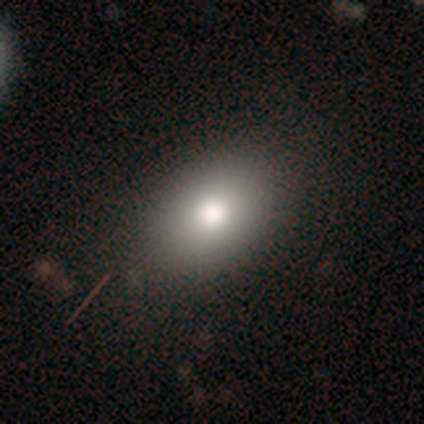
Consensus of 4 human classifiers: Volunteers were most divided on "smooth or featured": smooth: 75%, featured or disk: 25%, star or artifact: 0%. More confident: how rounded — in between (100%); merging — none (100%).